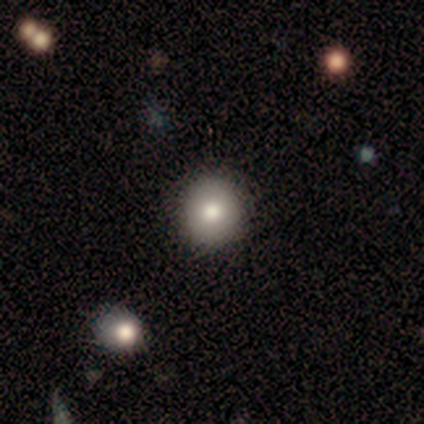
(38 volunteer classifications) smooth 82%, star or artifact 11%, featured or disk 8%. Down the decision tree: how rounded — round (90%); merging — none (85%).